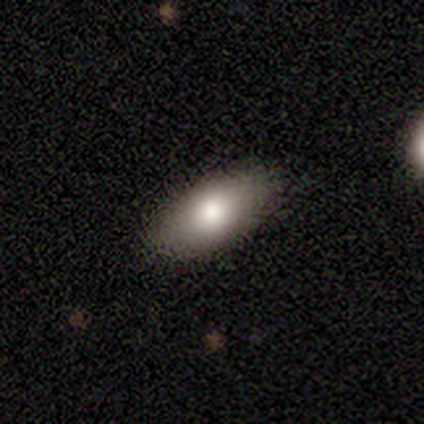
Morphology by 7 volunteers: This is clearly a smooth galaxy (86%). How rounded: likely in between (67%). Merging: clearly none (86%).